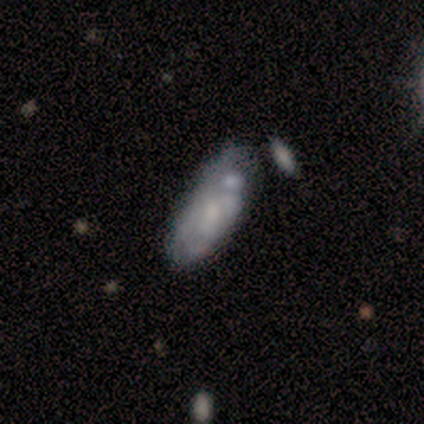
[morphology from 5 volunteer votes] Smooth or featured? featured or disk (80%)
Edge-on disk? no (100%)
Bar? no (100%)
Spiral arms? yes (75%)
Spiral winding? tight (100%)
Spiral arm count? 2 (67%)
Bulge size? moderate (50%, tied with small)
Merging? minor disturbance (40%, tied with major disturbance)